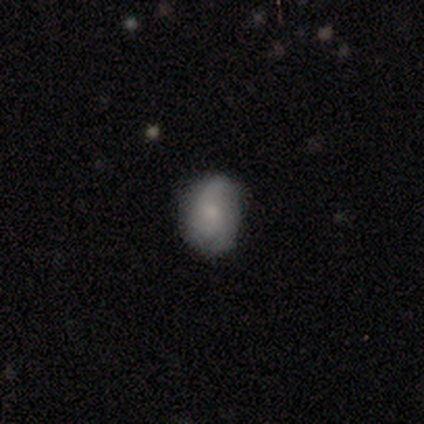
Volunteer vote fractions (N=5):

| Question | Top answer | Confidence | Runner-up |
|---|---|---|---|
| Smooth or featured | smooth | 60% | featured or disk (40%) |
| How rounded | in between | 67% | round (33%) |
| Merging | none | 60% | minor disturbance (40%) |